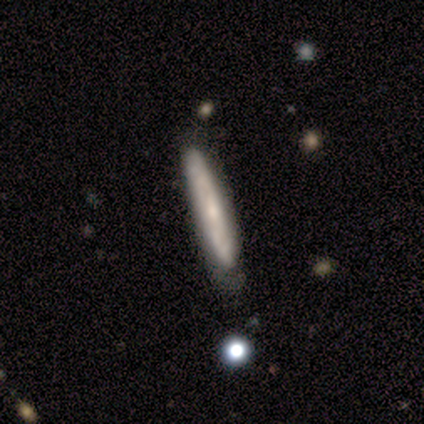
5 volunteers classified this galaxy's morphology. Q: Smooth or featured?
A: featured or disk (60%); runner-up: smooth (40%)
Q: Edge-on disk?
A: yes (67%); runner-up: no (33%)
Q: Edge-on bulge?
A: boxy (50%); tied with: rounded (50%)
Q: Merging?
A: none (60%); runner-up: minor disturbance (40%)